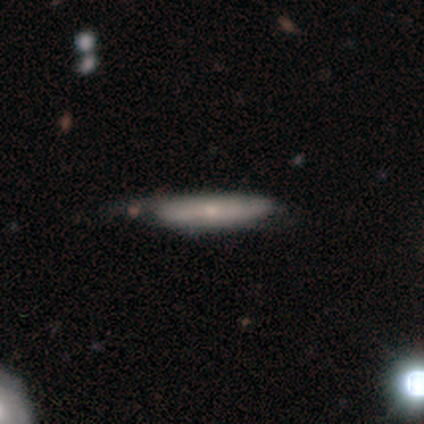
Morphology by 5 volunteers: Smooth or featured? smooth (60%)
How rounded? cigar-shaped (67%)
Merging? none (60%)